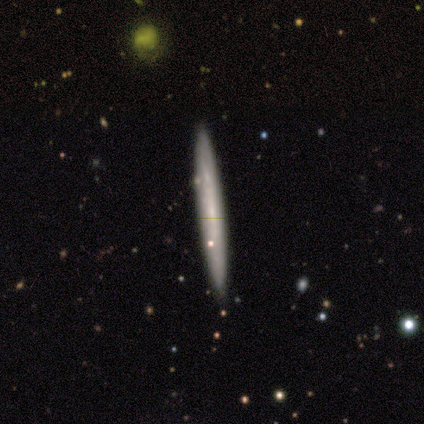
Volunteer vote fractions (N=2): Smooth or featured? smooth (100%)
How rounded? cigar-shaped (100%)
Merging? none (100%)